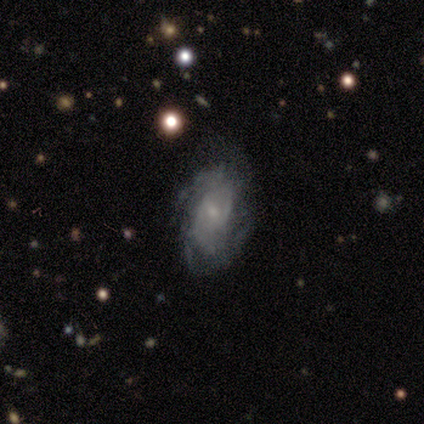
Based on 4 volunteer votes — Overall: featured or disk (100%). Edge-on disk: no (100%). Bar: no (75%). Spiral arms: yes (50%, tied with no). Spiral arm count: 4 (50%, tied with can't tell). Spiral winding: tight (50%, tied with loose). Bulge size: small (50%; moderate 25%). Merging: none (50%; minor disturbance 25%).